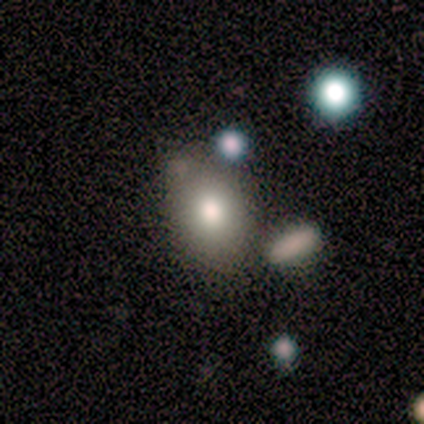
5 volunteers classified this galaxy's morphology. A smooth galaxy with no disk features (100%) that is in between round and cigar-shaped (100%). Merging: none (60%).